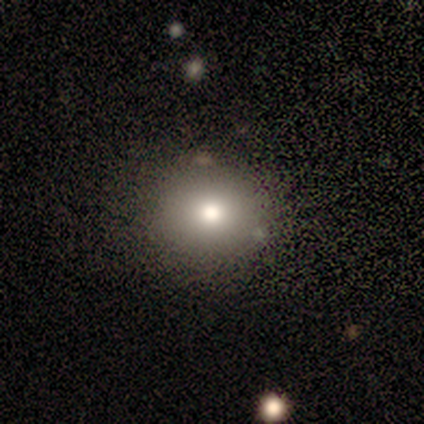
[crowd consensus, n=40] smooth_or_featured: smooth (p=0.80) [alt: star or artifact p=0.15]
how_rounded: round (p=0.84) [alt: in between p=0.16]
merging: none (p=0.85) [alt: major disturbance p=0.06]